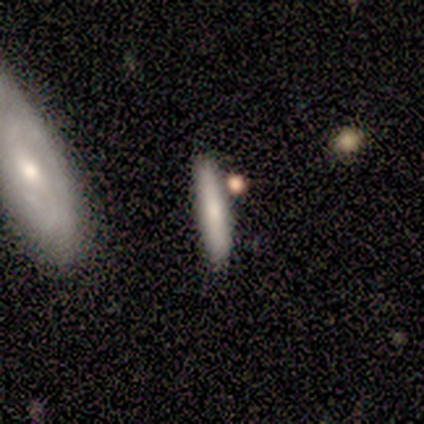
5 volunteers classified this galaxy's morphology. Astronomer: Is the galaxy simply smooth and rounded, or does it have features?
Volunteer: smooth — 80%.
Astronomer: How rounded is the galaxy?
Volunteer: cigar-shaped — 75%.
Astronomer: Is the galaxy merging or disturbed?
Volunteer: none — 80%.